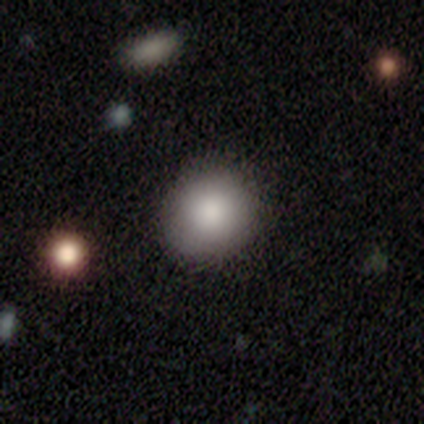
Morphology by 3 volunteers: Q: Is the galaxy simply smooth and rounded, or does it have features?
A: smooth — 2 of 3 (67%).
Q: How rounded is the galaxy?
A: round — 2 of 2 (100%).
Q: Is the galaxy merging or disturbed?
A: none — 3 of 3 (100%).